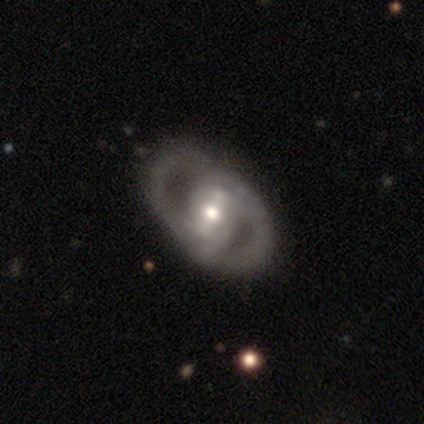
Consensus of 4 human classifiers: Morphology: type=featured or disk (100%); edge-on=no (100%); bar=strong (75%); spiral arms=yes (100%); winding=medium (75%); arm count=2 (100%); bulge=moderate (75%); merging=none (100%).